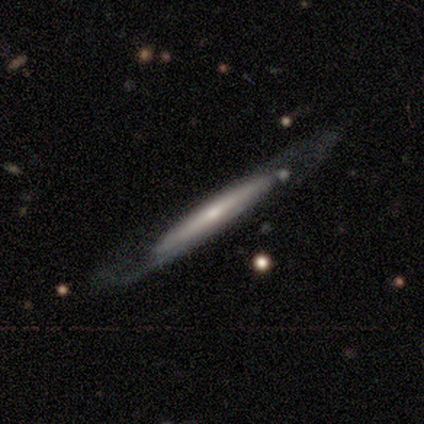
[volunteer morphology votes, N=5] This appears to be a featured or disk galaxy (80%) viewed edge-on (50%, tied with no) with no central bulge (100%). Merging: none (100%).